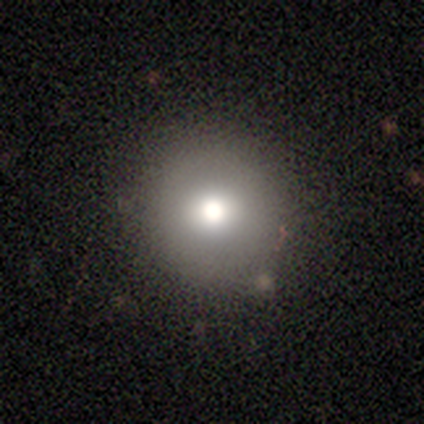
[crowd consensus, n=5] This appears to be a smooth galaxy with no disk features (60%) that is round (100%). Merging: none (100%).